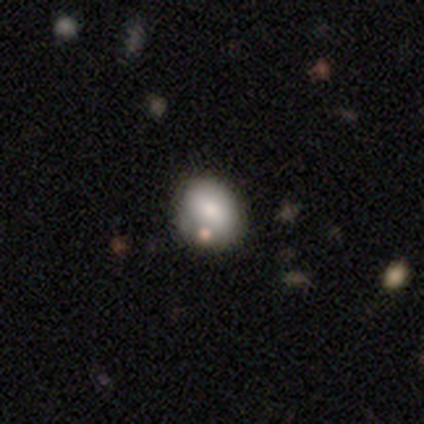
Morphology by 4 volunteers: type=smooth (100%); roundness=round (50%, tied with in between); merging=none (75%).